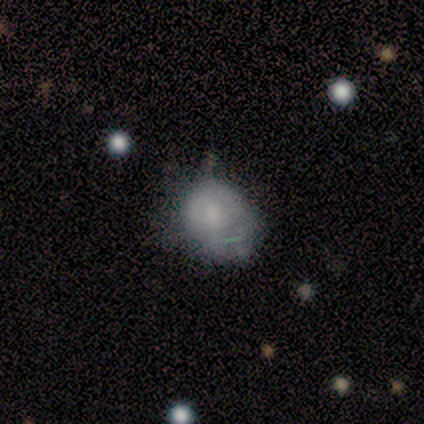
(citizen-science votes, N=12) Overall: smooth (67%). How rounded: round (75%). Merging: minor disturbance (64%).